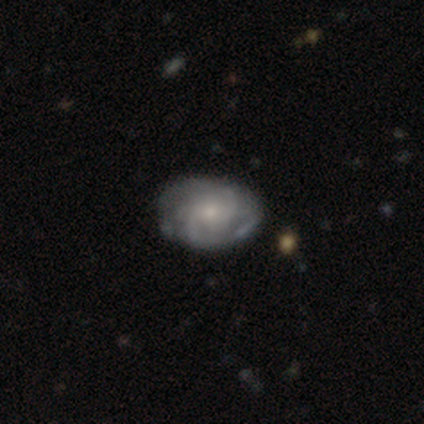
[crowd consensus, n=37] Smooth or featured: featured or disk — 84% (smooth — 14%)
Edge-on disk: no — 100%
Bar: no — 71% (weak — 26%)
Spiral arms: yes — 87% (no — 13%)
Spiral winding: medium — 52% (tight — 41%)
Spiral arm count: 2 — 41% (can't tell — 37%)
Bulge size: small — 71% (moderate — 19%)
Merging: none — 44% (minor disturbance — 14%)